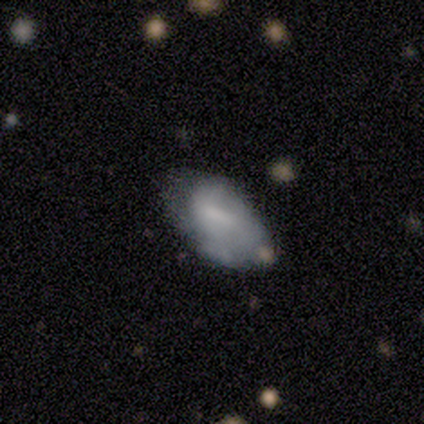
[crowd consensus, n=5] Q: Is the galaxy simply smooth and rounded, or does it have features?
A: smooth — 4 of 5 (80%).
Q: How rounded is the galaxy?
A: in between — 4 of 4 (100%).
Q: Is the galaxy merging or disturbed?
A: minor disturbance — 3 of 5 (60%).